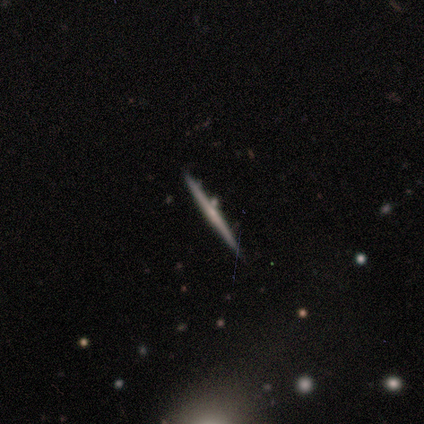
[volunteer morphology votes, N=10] Volunteers were most divided on "edge-on bulge" (2-way tie): none: 40%, rounded: 40%, boxy: 20%. More confident: edge-on disk — yes (100%); merging — none (100%); smooth or featured — featured or disk (50%).